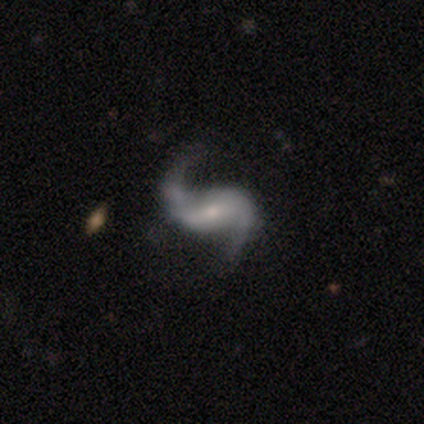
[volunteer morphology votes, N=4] Smooth or featured: featured or disk — 100%
Edge-on disk: no — 100%
Bar: weak — 75% (no — 25%)
Spiral arms: yes — 100%
Spiral winding: medium — 50% (tied with loose — 50%)
Spiral arm count: 2 — 100%
Bulge size: small — 75% (moderate — 25%)
Merging: none — 100%